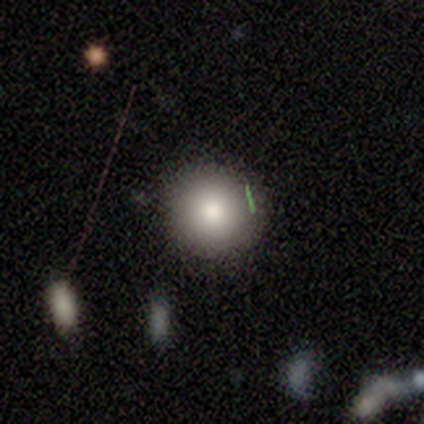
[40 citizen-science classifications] smooth_or_featured: smooth (p=0.78) [alt: star or artifact p=0.12]
how_rounded: round (p=0.87) [alt: in between p=0.06]
merging: none (p=0.86) [alt: minor disturbance p=0.14]